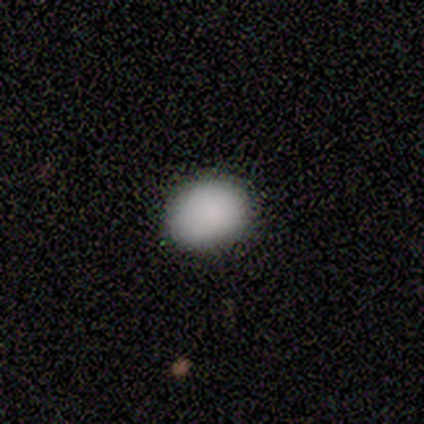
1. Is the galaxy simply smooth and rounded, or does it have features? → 75% smooth, 25% star or artifact, 0% featured or disk.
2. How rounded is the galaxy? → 67% round, 33% in between, 0% cigar-shaped.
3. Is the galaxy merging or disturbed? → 100% none, 0% minor disturbance, 0% major disturbance, 0% merger.